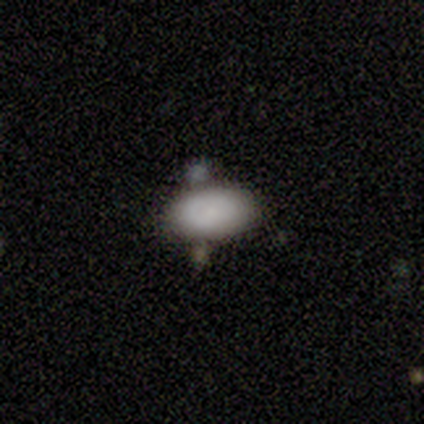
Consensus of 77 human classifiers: Smooth or featured? 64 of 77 (83%) said smooth. How rounded? 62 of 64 (97%) said in between. Merging? 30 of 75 (40%) said none.